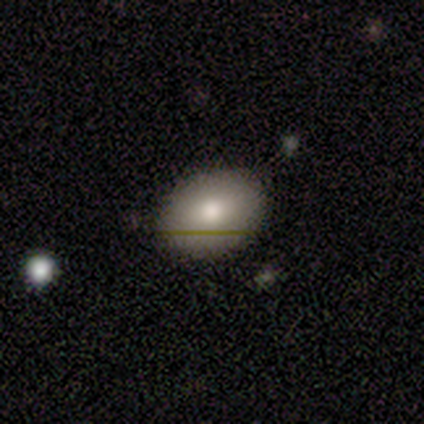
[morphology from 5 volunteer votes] type=smooth (60%); roundness=in between (67%); merging=none (100%).